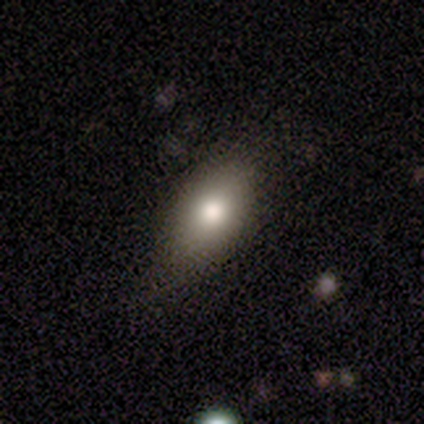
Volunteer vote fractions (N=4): smooth_or_featured: smooth (p=0.75) [alt: featured or disk p=0.25]
how_rounded: in between (p=1.00)
merging: none (p=0.75) [alt: minor disturbance p=0.25]